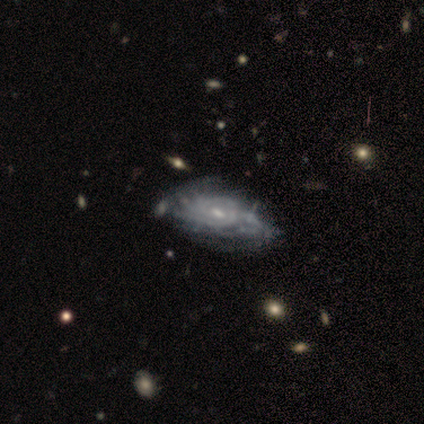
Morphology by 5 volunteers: A featured or disk galaxy (100%) with no bar (75%), tight (75%) spiral arms (100%) and a moderate central bulge (50%, tied with small). Merging: none (60%).